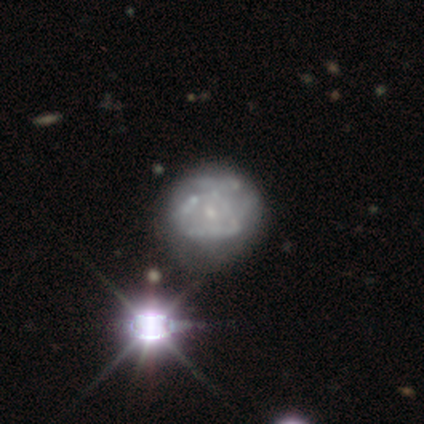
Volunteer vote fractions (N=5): Q: Smooth or featured?
A: featured or disk (60%); runner-up: smooth (20%)
Q: Edge-on disk?
A: no (100%)
Q: Bar?
A: no (100%)
Q: Spiral arms?
A: no (100%)
Q: Bulge size?
A: small (67%); runner-up: none (33%)
Q: Merging?
A: minor disturbance (50%); tied with: major disturbance (50%)